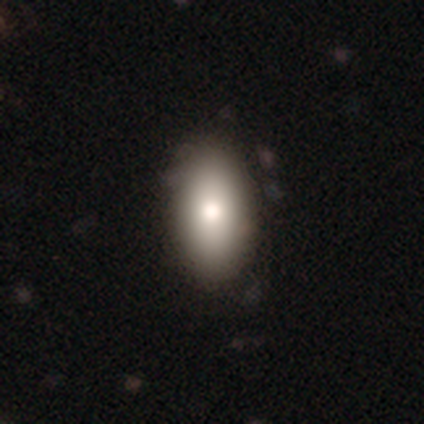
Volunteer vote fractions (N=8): Q: Smooth or featured?
A: smooth (75%); runner-up: featured or disk (25%)
Q: How rounded?
A: in between (100%)
Q: Merging?
A: none (75%); runner-up: minor disturbance (25%)